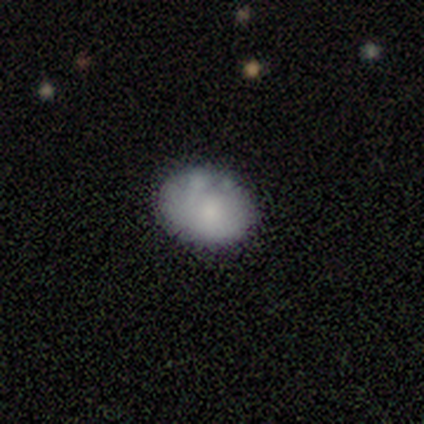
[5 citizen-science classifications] Smooth or featured: smooth — 80% (featured or disk — 20%)
How rounded: in between — 75% (round — 25%)
Merging: minor disturbance — 60% (none — 40%)